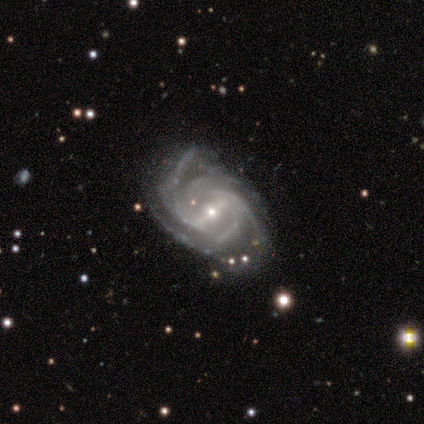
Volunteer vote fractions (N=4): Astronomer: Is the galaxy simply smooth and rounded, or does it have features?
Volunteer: featured or disk — 75%.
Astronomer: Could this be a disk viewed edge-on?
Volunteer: no — 100%.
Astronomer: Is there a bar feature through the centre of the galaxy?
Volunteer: strong — 100%.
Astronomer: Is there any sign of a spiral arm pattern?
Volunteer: yes — 100%.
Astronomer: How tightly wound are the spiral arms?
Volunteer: loose — 67%.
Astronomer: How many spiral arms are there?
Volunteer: can't tell — 67%.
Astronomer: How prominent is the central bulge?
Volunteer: small — 100%.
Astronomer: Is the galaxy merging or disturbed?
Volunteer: major disturbance — 75%.